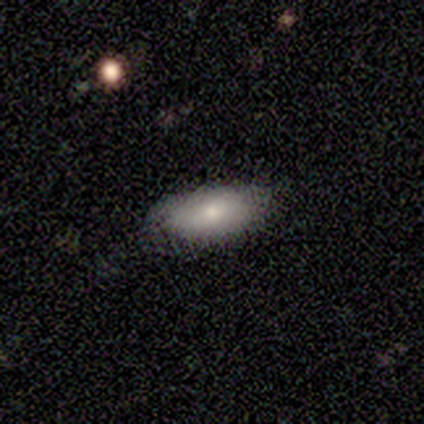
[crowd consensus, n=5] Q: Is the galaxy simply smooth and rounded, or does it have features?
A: smooth — 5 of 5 (100%).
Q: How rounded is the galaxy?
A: in between — 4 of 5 (80%).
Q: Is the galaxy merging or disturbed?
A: none — 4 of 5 (80%).